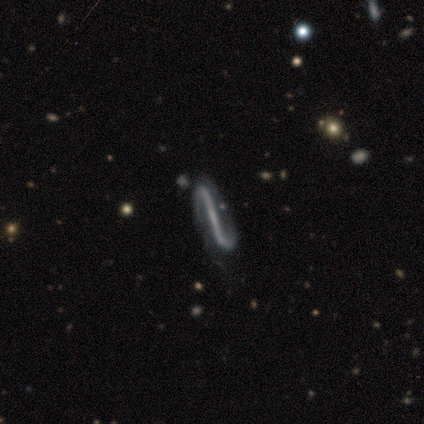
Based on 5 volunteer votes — Morphology: type=featured or disk (80%); edge-on=no (100%); bar=weak (75%); spiral arms=yes (50%, tied with no); winding=tight (50%, tied with loose); arm count=2 (100%); bulge=none (75%); merging=none (40%, tied with minor disturbance).